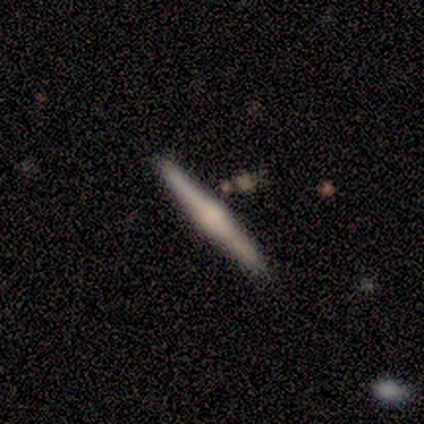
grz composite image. It shows a featured or disk galaxy (67%) viewed edge-on (100%) with a rounded central bulge (100%). Merging: none (83%).